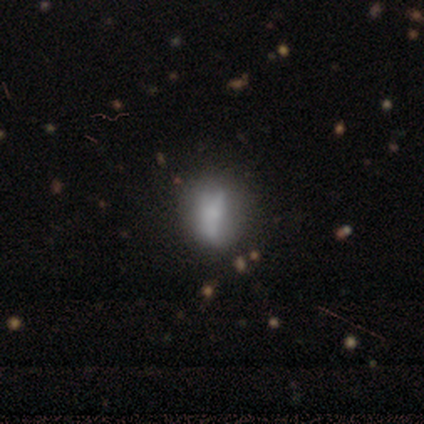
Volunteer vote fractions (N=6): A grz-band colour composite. It shows a smooth galaxy with no disk features (83%) that is in between round and cigar-shaped (80%). Merging: major disturbance (50%).